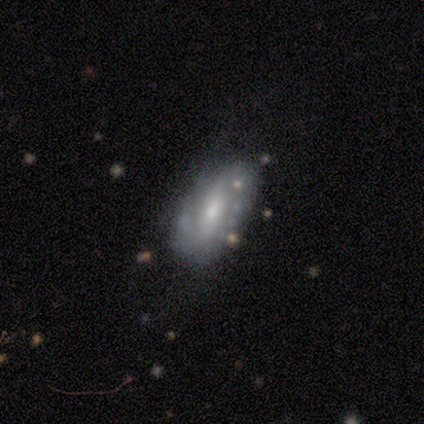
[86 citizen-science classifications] This is likely a featured or disk galaxy (66%). It is clearly not viewed edge-on (98%). Bar: possibly weak (46%). Spiral arm pattern: likely yes (79%). Spiral arm count: likely 2 (68%). Spiral winding: marginally medium (39%). Central bulge: possibly moderate (48%). Merging: likely none (64%).